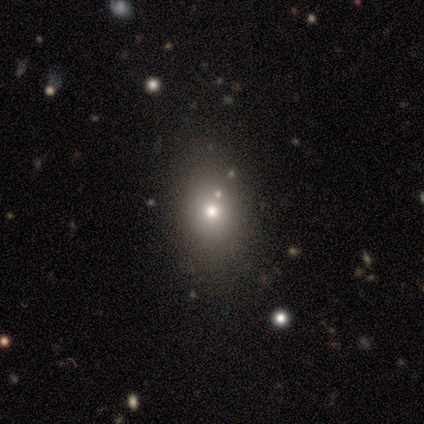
smooth 100%, featured or disk 0%, star or artifact 0%. Down the decision tree: how rounded — in between (60%); merging — none (80%).